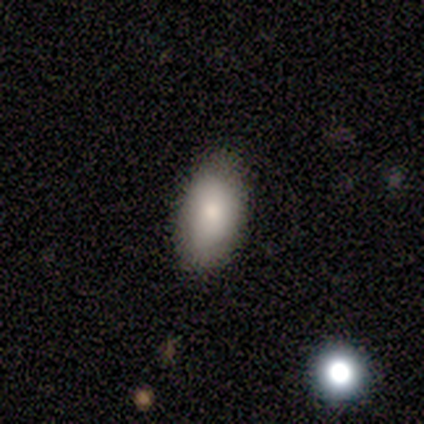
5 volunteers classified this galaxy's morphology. Overall: smooth (80%). How rounded: in between (100%). Merging: none (100%).